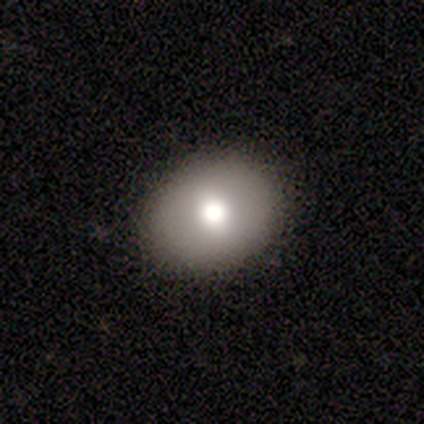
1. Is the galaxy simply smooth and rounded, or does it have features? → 79% smooth, 18% featured or disk, 3% star or artifact.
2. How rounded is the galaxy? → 57% round, 43% in between, 0% cigar-shaped.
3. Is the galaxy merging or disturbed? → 97% none, 3% minor disturbance, 0% major disturbance, 0% merger.